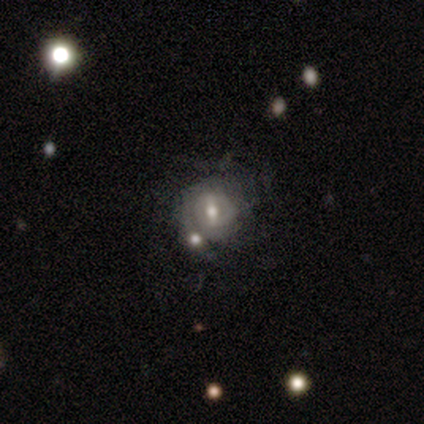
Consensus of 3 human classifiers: smooth-or-featured: smooth: 67% | featured or disk: 33% | star or artifact: 0%
  how-rounded: round: 100% | in between: 0% | cigar-shaped: 0%
  merging: none: 67% | merger: 33% | minor disturbance: 0% | major disturbance: 0%